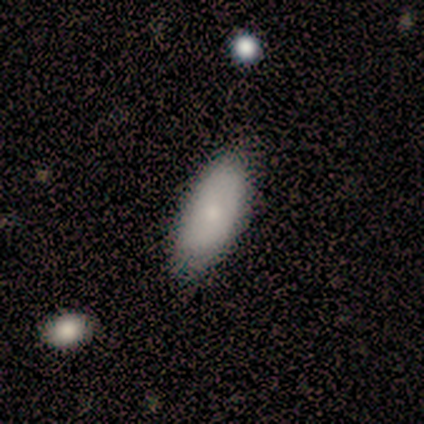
featured or disk 67%, smooth 33%, star or artifact 0%. Down the decision tree: edge-on disk — yes (50%, tied with no); edge-on bulge — rounded (100%); merging — none (67%).